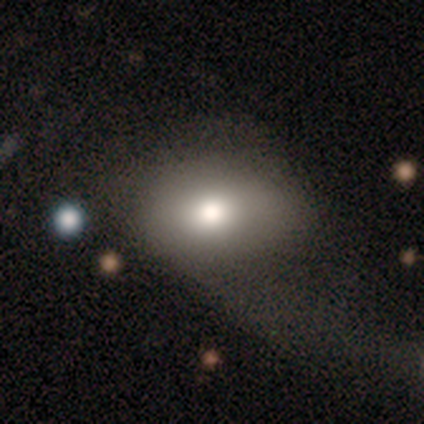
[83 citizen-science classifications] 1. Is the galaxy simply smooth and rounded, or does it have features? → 78% smooth, 14% featured or disk, 7% star or artifact.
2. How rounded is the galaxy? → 75% in between, 25% round, 0% cigar-shaped.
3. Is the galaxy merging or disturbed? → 44% major disturbance, 42% none, 13% minor disturbance, 1% merger.